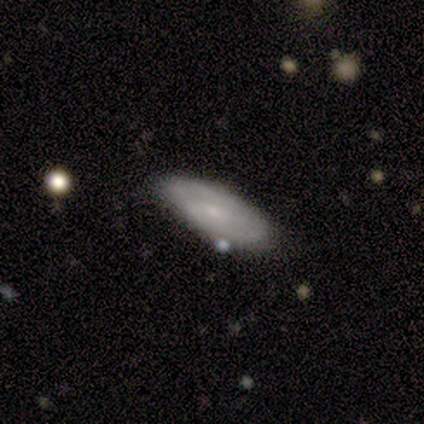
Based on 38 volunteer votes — A smooth galaxy with no disk features (55%) that is in between round and cigar-shaped (67%).

Vote fractions:
- Smooth or featured? smooth: 55% / featured or disk: 39% / star or artifact: 5%
- How rounded? in between: 67% / cigar-shaped: 33% / round: 0%
- Merging? none: 86% / minor disturbance: 8% / major disturbance: 6% / merger: 0%